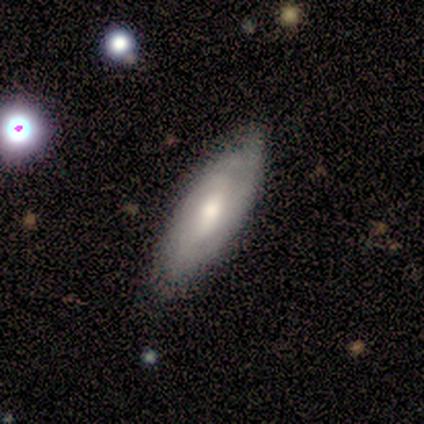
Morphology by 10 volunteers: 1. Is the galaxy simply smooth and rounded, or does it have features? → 70% featured or disk, 20% smooth, 10% star or artifact.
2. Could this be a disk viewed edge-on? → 71% no, 29% yes.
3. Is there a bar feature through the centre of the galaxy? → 60% no, 40% weak, 0% strong.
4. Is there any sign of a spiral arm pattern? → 80% yes, 20% no.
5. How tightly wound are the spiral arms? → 75% tight, 25% medium, 0% loose.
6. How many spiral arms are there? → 75% can't tell, 25% 3, 0% 1, 0% 2, 0% 4, 0% more than 4.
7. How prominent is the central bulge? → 100% moderate, 0% dominant, 0% large, 0% small, 0% none.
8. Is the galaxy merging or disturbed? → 100% none, 0% minor disturbance, 0% major disturbance, 0% merger.